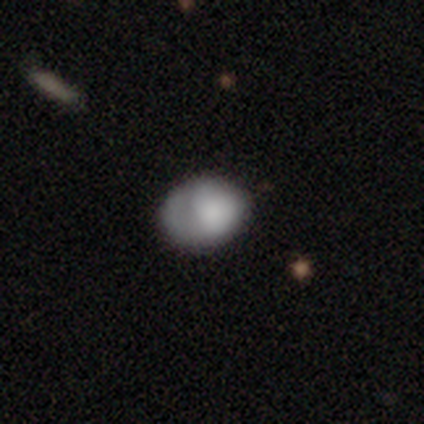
This is clearly a smooth galaxy (80%). How rounded: likely in between (75%). Merging: clearly none (80%).